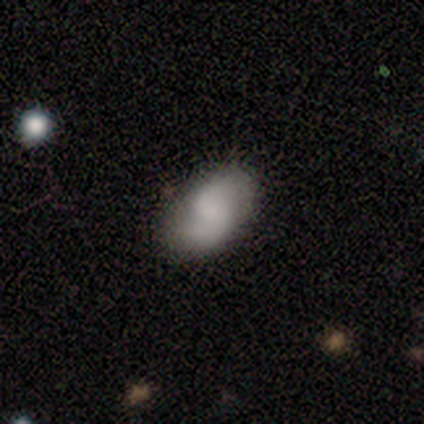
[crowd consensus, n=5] smooth-or-featured: featured or disk: 60% | smooth: 40% | star or artifact: 0%
  disk-edge-on: no: 100% | yes: 0%
    bar: no: 100% | strong: 0% | weak: 0%
    has-spiral-arms: yes: 100% | no: 0%
      spiral-winding: tight: 33% (tied) | medium: 33% (tied) | loose: 33% (tied)
      spiral-arm-count: 2: 67% | can't tell: 33% | 1: 0% | 3: 0% | 4: 0% | more than 4: 0%
    bulge-size: moderate: 33% (tied) | small: 33% (tied) | none: 33% (tied) | dominant: 0% | large: 0%
  merging: none: 80% | major disturbance: 20% | minor disturbance: 0% | merger: 0%